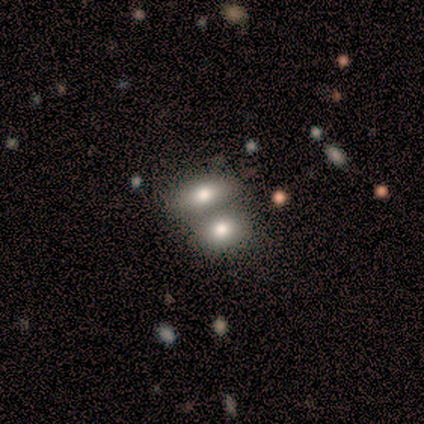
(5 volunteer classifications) Overall: smooth (80%). How rounded: in between (75%). Merging: none (60%; merger 40%).